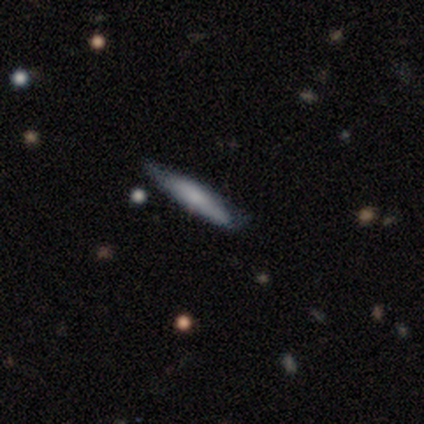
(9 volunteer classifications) A smooth galaxy with no disk features (67%) that is cigar-shaped (100%).

Vote fractions:
- Smooth or featured? smooth: 67% / featured or disk: 33% / star or artifact: 0%
- How rounded? cigar-shaped: 100% / round: 0% / in between: 0%
- Merging? none: 89% / minor disturbance: 11% / major disturbance: 0% / merger: 0%